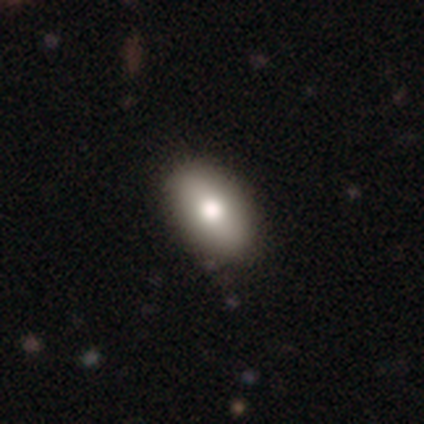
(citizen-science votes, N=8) smooth-or-featured: smooth: 88% | featured or disk: 12% | star or artifact: 0%
  how-rounded: in between: 86% | round: 14% | cigar-shaped: 0%
  merging: none: 100% | minor disturbance: 0% | major disturbance: 0% | merger: 0%